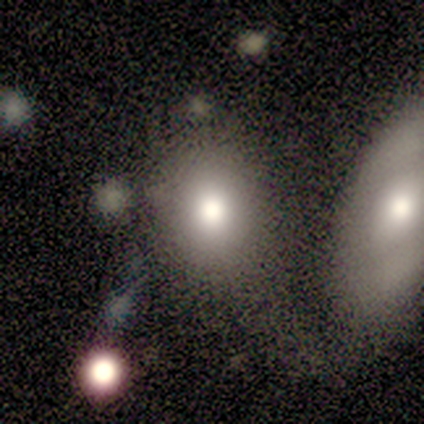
Q: Smooth or featured?
A: smooth (81%); runner-up: featured or disk (12%)
Q: How rounded?
A: round (62%); runner-up: in between (38%)
Q: Merging?
A: none (47%); runner-up: merger (33%)